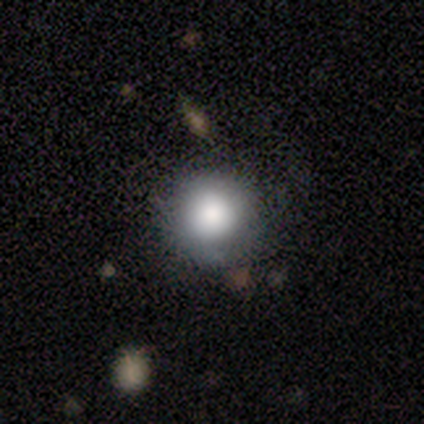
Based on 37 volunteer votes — This appears to be a smooth galaxy with no disk features (78%) that is round (97%). Merging: none (88%).